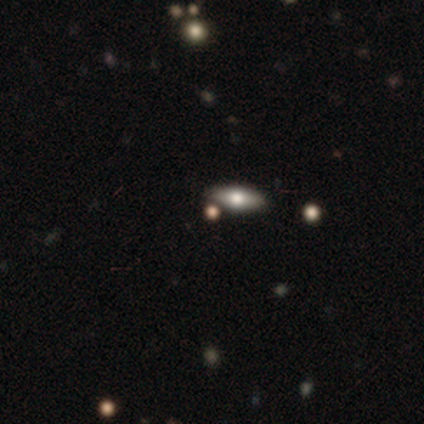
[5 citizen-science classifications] Smooth or featured: smooth — 40% (tied with featured or disk — 40%)
How rounded: in between — 100%
Merging: none — 75% (minor disturbance — 25%)